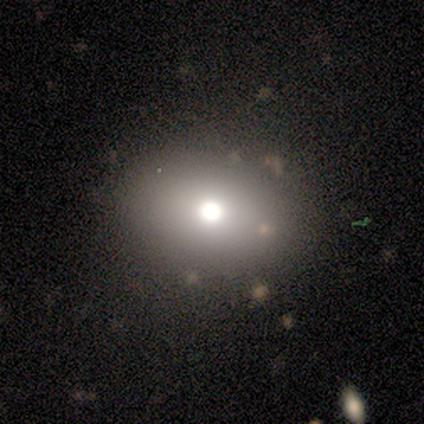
Morphology: type=smooth (40%, tied with star or artifact); roundness=round (100%); merging=none (67%).